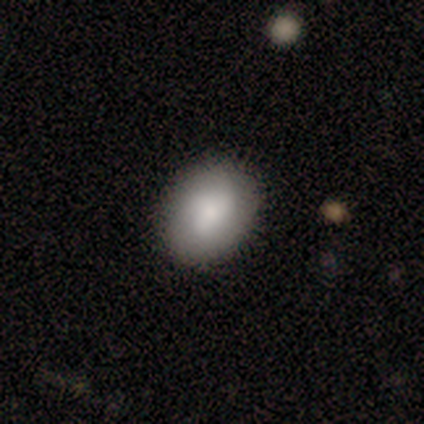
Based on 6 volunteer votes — This is clearly a smooth galaxy (83%). How rounded: clearly in between (100%). Merging: clearly none (100%).